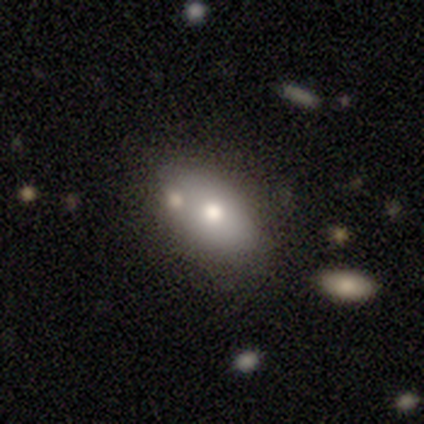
Smooth or featured?
  - smooth: 55% *
  - featured or disk: 27%
  - star or artifact: 18%
How rounded?
  - in between: 83% *
  - round: 17%
  - cigar-shaped: 0%
Merging?
  - none: 78% *
  - minor disturbance: 22%
  - major disturbance: 0%
  - merger: 0%